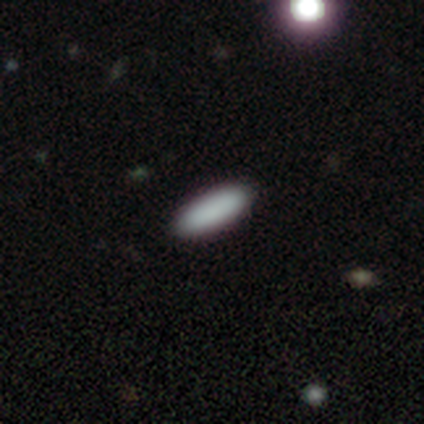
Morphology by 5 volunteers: A smooth galaxy with no disk features (100%) that is cigar-shaped (80%).

Vote fractions:
- Smooth or featured? smooth: 100% / featured or disk: 0% / star or artifact: 0%
- How rounded? cigar-shaped: 80% / in between: 20% / round: 0%
- Merging? none: 100% / minor disturbance: 0% / major disturbance: 0% / merger: 0%